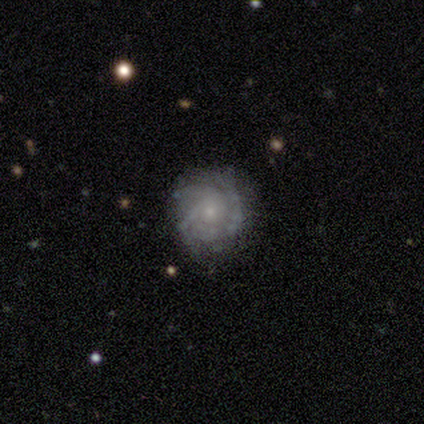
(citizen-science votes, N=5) Morphology: type=featured or disk (100%); edge-on=no (100%); bar=no (60%); spiral arms=yes (80%); winding=tight (50%, tied with medium); arm count=2 (25%, tied with 3, more than 4 and can't tell); bulge=small (80%); merging=none (100%).